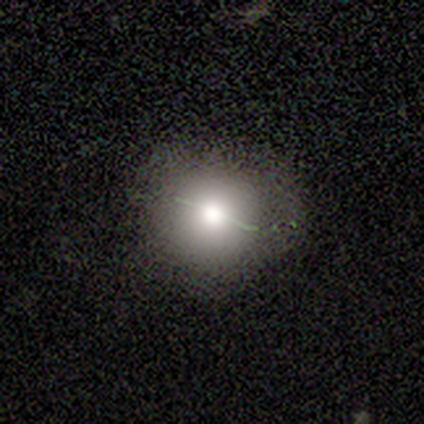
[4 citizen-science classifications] Smooth or featured? 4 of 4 (100%) said smooth. How rounded? 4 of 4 (100%) said round. Merging? 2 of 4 (50%, tied with minor disturbance) said none.